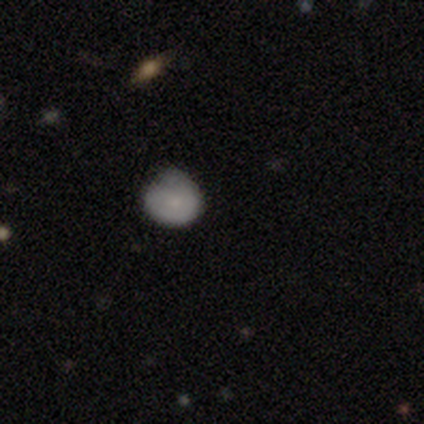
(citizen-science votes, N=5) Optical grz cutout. It shows a smooth galaxy with no disk features (80%) that is round (75%). Merging: minor disturbance (75%).